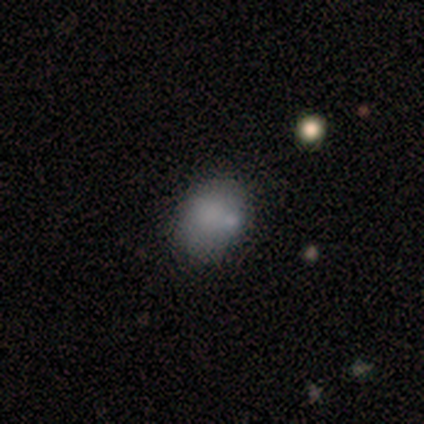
Smooth or featured: smooth — 84% (featured or disk — 8%)
How rounded: in between — 81% (round — 19%)
Merging: none — 74% (merger — 14%)